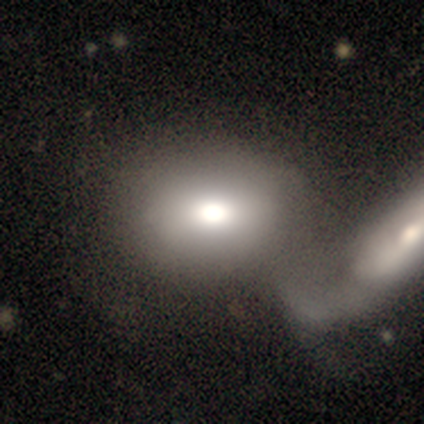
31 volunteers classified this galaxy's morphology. smooth 81%, featured or disk 10%, star or artifact 10%. Down the decision tree: how rounded — in between (60%); merging — merger (54%).